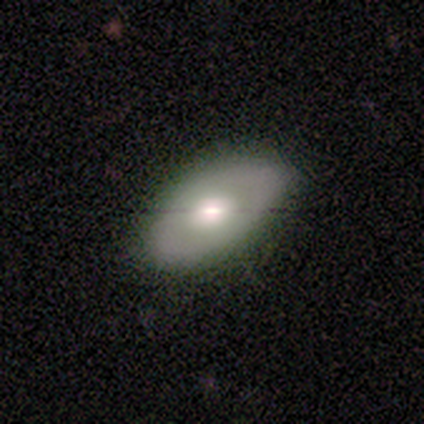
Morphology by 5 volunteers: This is clearly a smooth galaxy (80%). How rounded: clearly in between (100%). Merging: clearly none (80%).